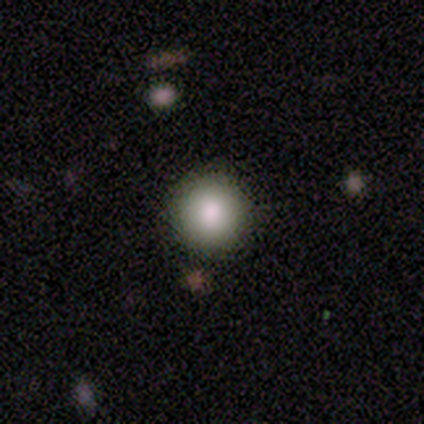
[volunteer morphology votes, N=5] type=smooth (80%); roundness=round (100%); merging=none (100%).